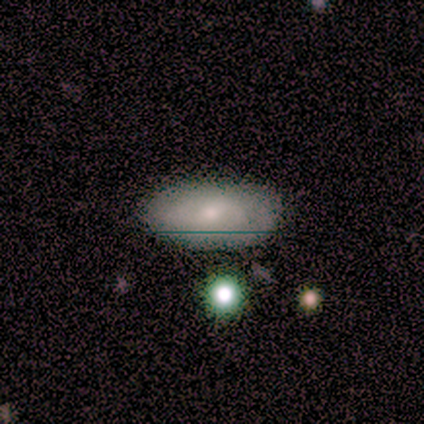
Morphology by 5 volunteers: Volunteers were most divided on "merging": none: 75%, minor disturbance: 25%, major disturbance: 0%, merger: 0%. More confident: how rounded — in between (100%); smooth or featured — smooth (80%).